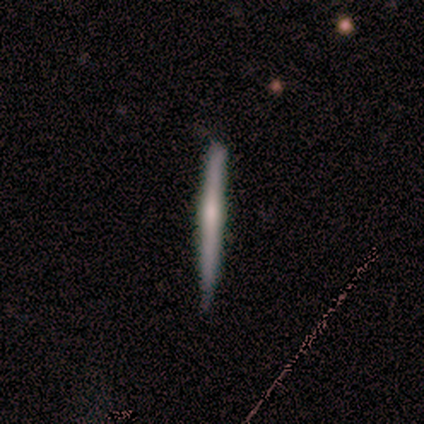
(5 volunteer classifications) This is likely a featured or disk galaxy (60%). It is clearly viewed edge-on (100%). Edge-on bulge: likely boxy (67%). Merging: likely none (60%).